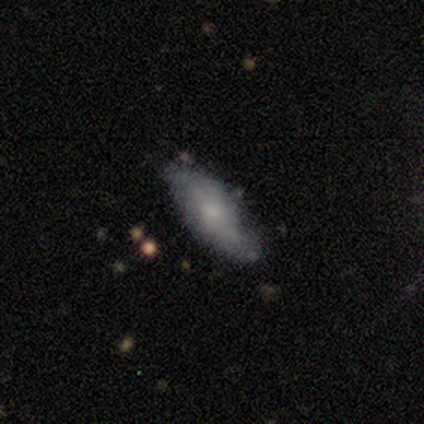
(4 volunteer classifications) smooth 50% (tied), featured or disk 50% (tied), star or artifact 0%. Down the decision tree: how rounded — cigar-shaped (100%); merging — none (50%).